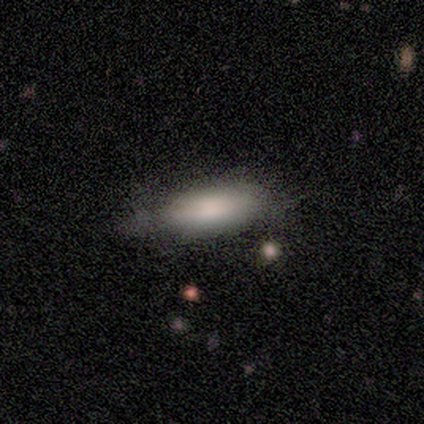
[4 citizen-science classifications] A smooth galaxy with no disk features (100%) that is cigar-shaped (100%). Merging: none (50%, tied with minor disturbance).